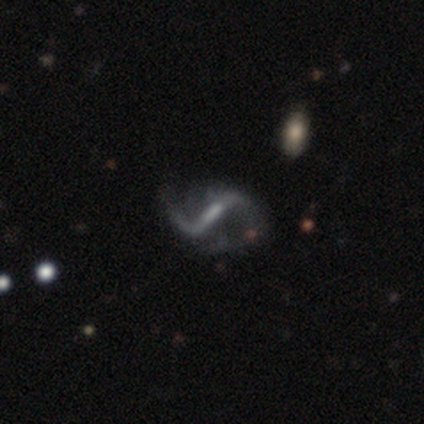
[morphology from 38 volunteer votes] type=featured or disk (84%); edge-on=no (91%); bar=strong (66%); spiral arms=yes (93%); winding=loose (81%); arm count=2 (93%); bulge=small (59%); merging=none (59%).